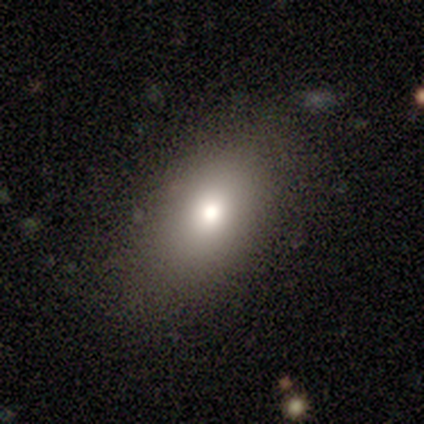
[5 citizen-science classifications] Smooth or featured: smooth — 80% (featured or disk — 20%)
How rounded: in between — 100%
Merging: none — 100%